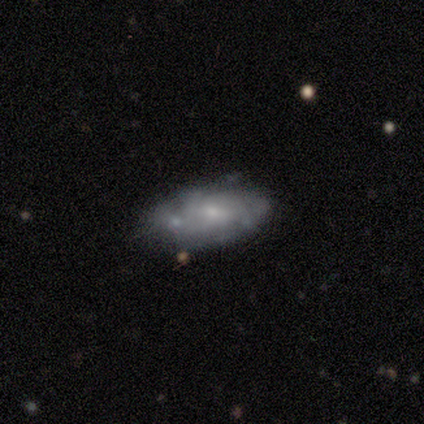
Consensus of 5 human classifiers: Smooth or featured? 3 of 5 (60%) said smooth. How rounded? 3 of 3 (100%) said in between. Merging? 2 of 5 (40%, tied with minor disturbance) said none.